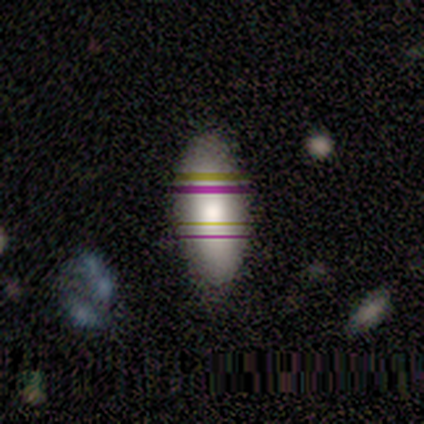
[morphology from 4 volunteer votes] This appears to be a smooth galaxy with no disk features (75%) that is in between round and cigar-shaped (100%). Merging: none (100%).